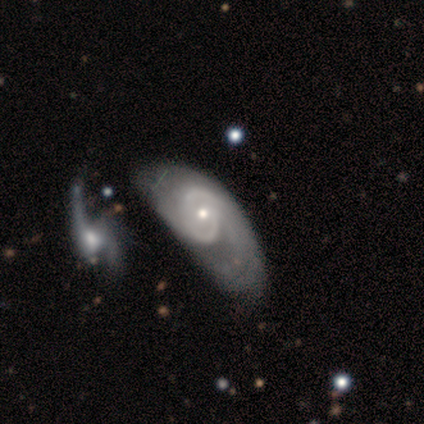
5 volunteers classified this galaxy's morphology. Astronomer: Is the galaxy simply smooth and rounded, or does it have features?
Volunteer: featured or disk — 60% (runner-up: smooth, 40%).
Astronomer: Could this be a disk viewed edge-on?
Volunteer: no — 100%.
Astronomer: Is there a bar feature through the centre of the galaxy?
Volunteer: no — 67%.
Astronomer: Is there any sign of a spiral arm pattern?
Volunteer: yes — 100%.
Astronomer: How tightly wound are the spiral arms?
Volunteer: medium — 100%.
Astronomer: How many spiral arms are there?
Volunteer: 2 — 33%, tied with 3 and can't tell at 33%.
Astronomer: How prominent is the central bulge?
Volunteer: small — 67%.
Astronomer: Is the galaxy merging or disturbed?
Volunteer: major disturbance — 40%, tied with merger at 40%.